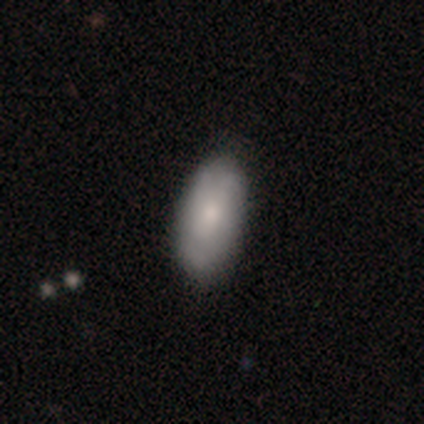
Smooth or featured?
  - smooth: 68% *
  - featured or disk: 30%
  - star or artifact: 3%
How rounded?
  - in between: 92% *
  - cigar-shaped: 8%
  - round: 0%
Merging?
  - none: 39% *
  - minor disturbance: 13%
  - merger: 1%
  - major disturbance: 0%